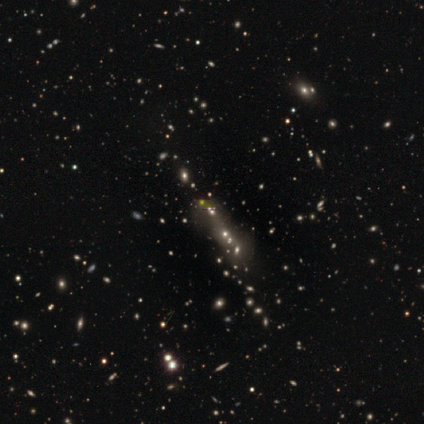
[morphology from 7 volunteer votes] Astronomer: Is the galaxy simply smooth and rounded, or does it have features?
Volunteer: star or artifact — 86%.